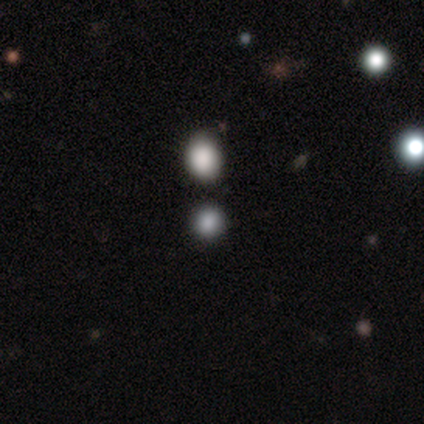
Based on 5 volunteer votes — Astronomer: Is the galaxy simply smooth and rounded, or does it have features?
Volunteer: smooth — 80%.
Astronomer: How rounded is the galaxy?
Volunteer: round — 75%.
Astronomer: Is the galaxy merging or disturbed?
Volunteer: none — 100%.